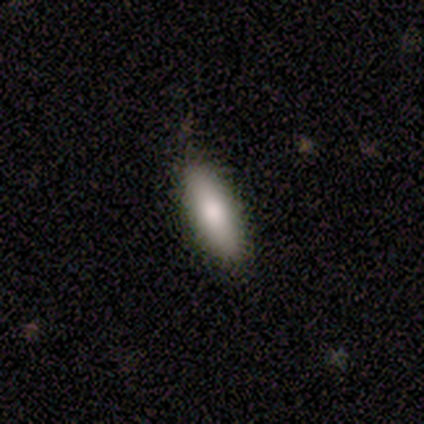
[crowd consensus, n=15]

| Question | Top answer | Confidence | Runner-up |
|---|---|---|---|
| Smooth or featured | smooth | 87% | featured or disk (13%) |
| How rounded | in between | 62% | cigar-shaped (38%) |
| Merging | none | 87% | minor disturbance (13%) |